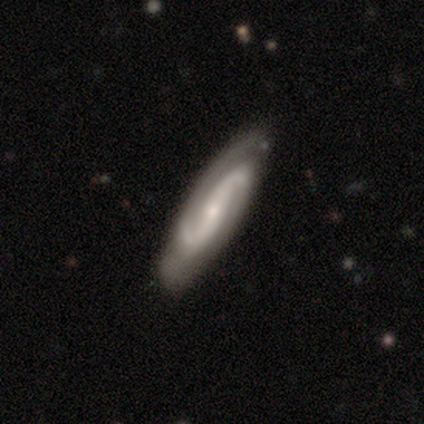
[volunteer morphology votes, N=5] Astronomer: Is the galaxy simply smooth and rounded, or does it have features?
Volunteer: featured or disk — 100%.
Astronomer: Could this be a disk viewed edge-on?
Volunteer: no — 100%.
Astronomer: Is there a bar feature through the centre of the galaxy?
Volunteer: weak — 60% (runner-up: no, 40%).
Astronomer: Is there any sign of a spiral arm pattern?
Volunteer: yes — 100%.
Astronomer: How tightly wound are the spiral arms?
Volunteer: tight — 40%, tied with loose at 40%.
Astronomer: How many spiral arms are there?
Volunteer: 2 — 60%.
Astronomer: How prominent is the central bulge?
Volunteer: small — 80%.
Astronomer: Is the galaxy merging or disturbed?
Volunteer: none — 100%.